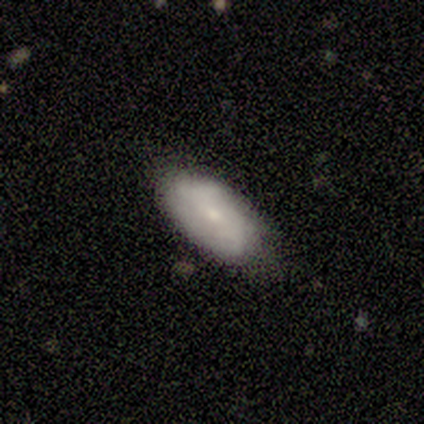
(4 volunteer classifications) featured or disk 75%, smooth 25%, star or artifact 0%. Down the decision tree: edge-on disk — no (100%); bar — no (67%); spiral arms — yes (67%); spiral arm count — 2 (100%); spiral winding — loose (100%); bulge size — small (100%); merging — none (100%).